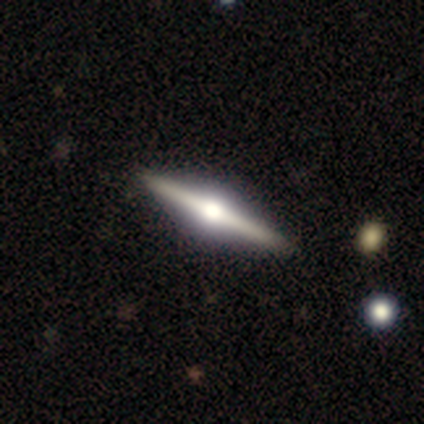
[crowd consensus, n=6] Smooth or featured?
  - featured or disk: 100% *
  - smooth: 0%
  - star or artifact: 0%
Edge-on disk?
  - yes: 100% *
  - no: 0%
Edge-on bulge?
  - rounded: 100% *
  - boxy: 0%
  - none: 0%
Merging?
  - none: 100% *
  - minor disturbance: 0%
  - major disturbance: 0%
  - merger: 0%